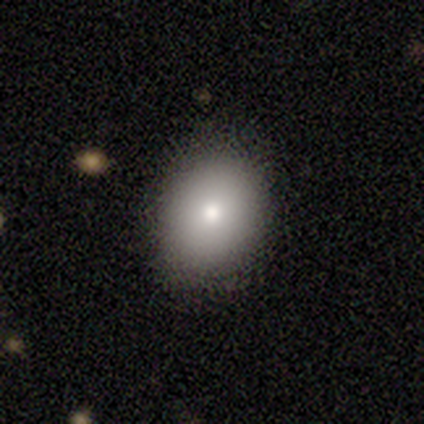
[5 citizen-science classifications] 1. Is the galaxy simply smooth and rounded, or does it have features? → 100% smooth, 0% featured or disk, 0% star or artifact.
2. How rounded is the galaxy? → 60% round, 40% in between, 0% cigar-shaped.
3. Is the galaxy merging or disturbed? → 100% none, 0% minor disturbance, 0% major disturbance, 0% merger.